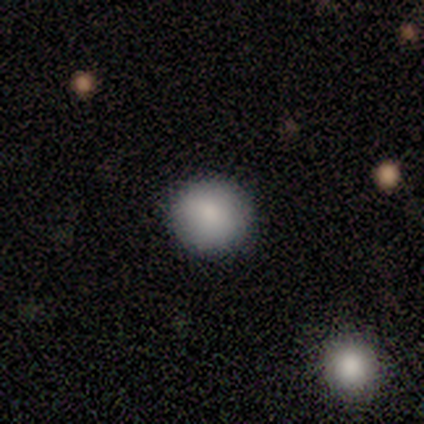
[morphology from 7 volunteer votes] smooth 71%, featured or disk 14%, star or artifact 14%. Down the decision tree: how rounded — round (100%); merging — none (83%).